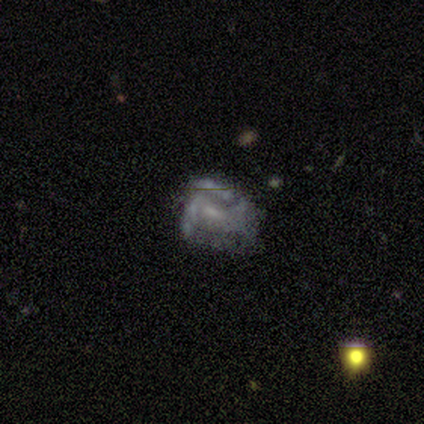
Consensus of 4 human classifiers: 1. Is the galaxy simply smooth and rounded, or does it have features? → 75% featured or disk, 25% smooth, 0% star or artifact.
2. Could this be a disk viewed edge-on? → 100% no, 0% yes.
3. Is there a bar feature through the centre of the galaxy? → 67% no, 33% weak, 0% strong.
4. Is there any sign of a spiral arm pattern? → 67% no, 33% yes.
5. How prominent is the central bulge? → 100% small, 0% dominant, 0% large, 0% moderate, 0% none.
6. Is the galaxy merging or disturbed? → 75% none, 25% major disturbance, 0% minor disturbance, 0% merger.